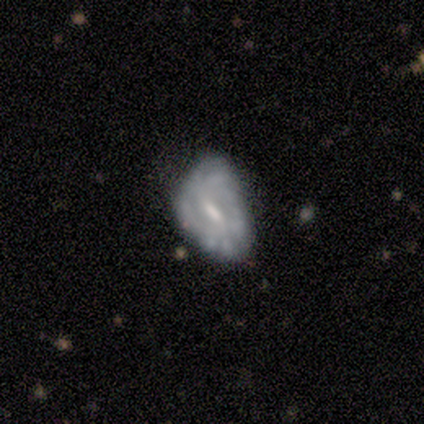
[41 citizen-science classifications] This appears to be a featured or disk galaxy (80%) with a weak bar (61%), tight (73%) spiral arms (67%) and a moderate central bulge (45%). Merging: minor disturbance (51%).